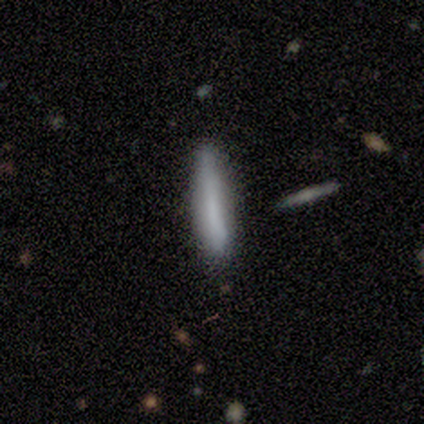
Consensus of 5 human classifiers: Smooth or featured?
  - smooth: 60% *
  - featured or disk: 40%
  - star or artifact: 0%
How rounded?
  - cigar-shaped: 100% *
  - round: 0%
  - in between: 0%
Merging?
  - none: 80% *
  - minor disturbance: 20%
  - major disturbance: 0%
  - merger: 0%